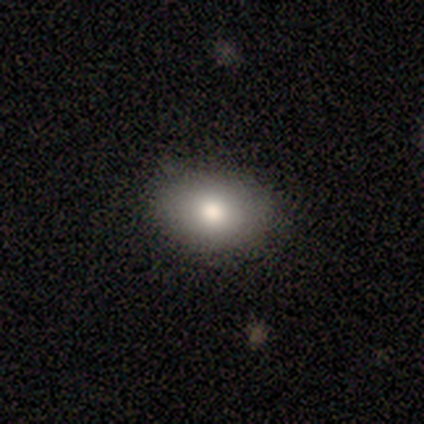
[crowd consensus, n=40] Smooth or featured?
  - smooth: 92% *
  - featured or disk: 5%
  - star or artifact: 2%
How rounded?
  - in between: 78% *
  - round: 22%
  - cigar-shaped: 0%
Merging?
  - none: 79% *
  - minor disturbance: 13%
  - major disturbance: 8%
  - merger: 0%